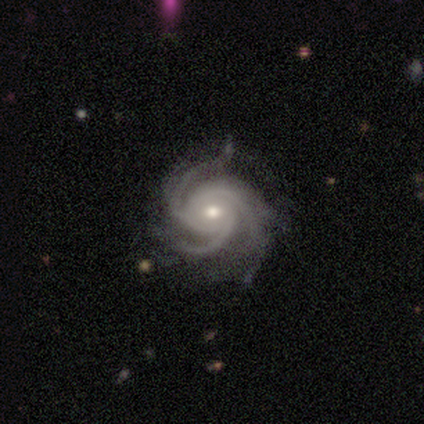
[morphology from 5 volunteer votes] Smooth or featured?
  - featured or disk: 100% *
  - smooth: 0%
  - star or artifact: 0%
Edge-on disk?
  - no: 80% *
  - yes: 20%
Bar?
  - no: 50% *
  - strong: 25%
  - weak: 25%
Spiral arms?
  - yes: 100% *
  - no: 0%
Spiral winding?
  - tight: 50% * (tied)
  - medium: 50% * (tied)
  - loose: 0%
Spiral arm count?
  - 4: 75% *
  - 3: 25%
  - 1: 0%
  - 2: 0%
  - more than 4: 0%
  - can't tell: 0%
Bulge size?
  - moderate: 50% * (tied)
  - small: 50% * (tied)
  - dominant: 0%
  - large: 0%
  - none: 0%
Merging?
  - none: 80% *
  - major disturbance: 20%
  - minor disturbance: 0%
  - merger: 0%